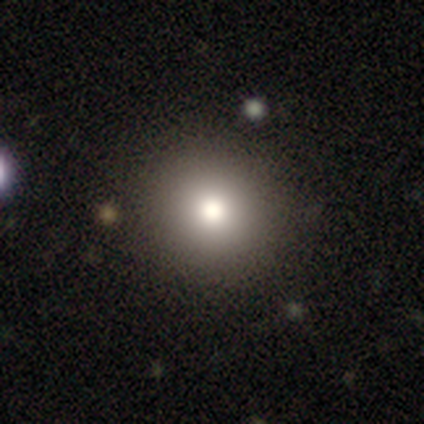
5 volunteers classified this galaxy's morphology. Overall: smooth (80%). How rounded: round (100%). Merging: none (100%).